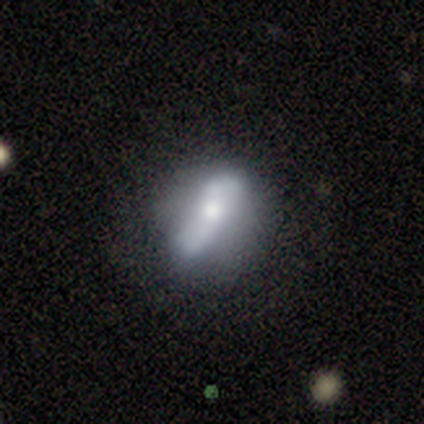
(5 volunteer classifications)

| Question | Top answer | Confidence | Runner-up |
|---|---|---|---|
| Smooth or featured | featured or disk | 80% | star or artifact (20%) |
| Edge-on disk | no | 100% | — |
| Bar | no | 75% | weak (25%) |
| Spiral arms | yes | 50% | tied: no (50%) |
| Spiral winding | loose | 100% | — |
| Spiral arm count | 2 | 100% | — |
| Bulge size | moderate | 50% | large (25%) |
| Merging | none | 50% | tied: minor disturbance (50%) |